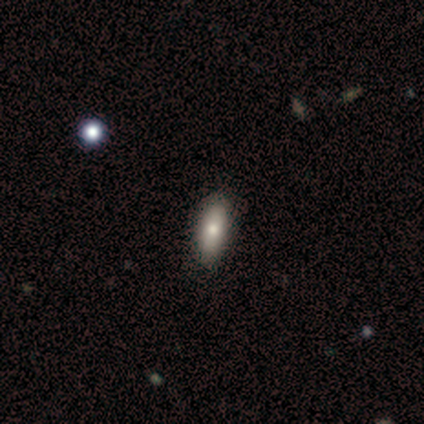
Q: Smooth or featured?
A: smooth (50%); tied with: star or artifact (50%)
Q: How rounded?
A: in between (100%)
Q: Merging?
A: none (50%); tied with: minor disturbance (50%)